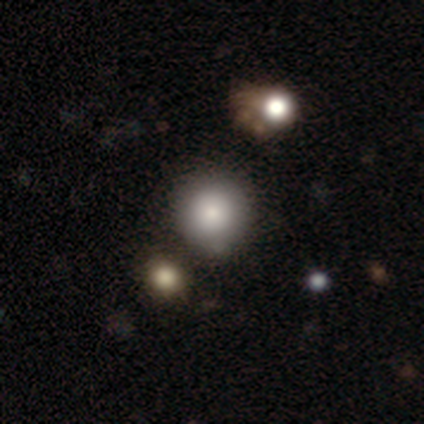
Volunteers were most divided on "merging": none: 80%, minor disturbance: 20%, major disturbance: 0%, merger: 0%. More confident: smooth or featured — smooth (100%); how rounded — round (100%).